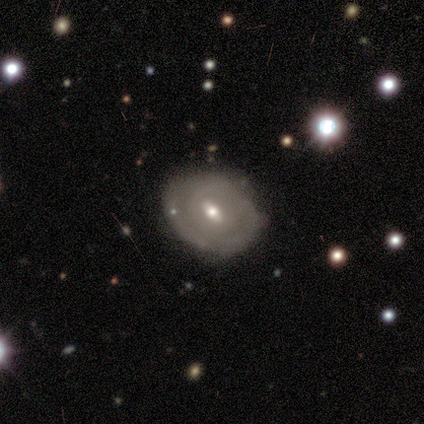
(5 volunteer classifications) This appears to be a smooth galaxy with no disk features (60%) that is in between round and cigar-shaped (67%). Merging: minor disturbance (60%).